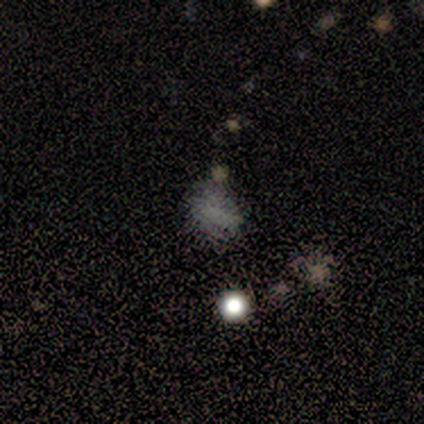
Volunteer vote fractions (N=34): smooth_or_featured: star or artifact (p=0.47) [alt: smooth p=0.41]